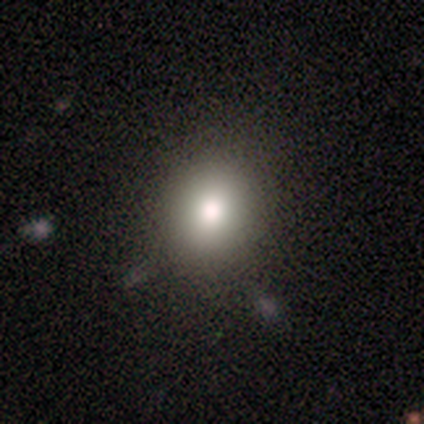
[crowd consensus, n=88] Smooth or featured? smooth (76%)
How rounded? round (69%)
Merging? none (85%)